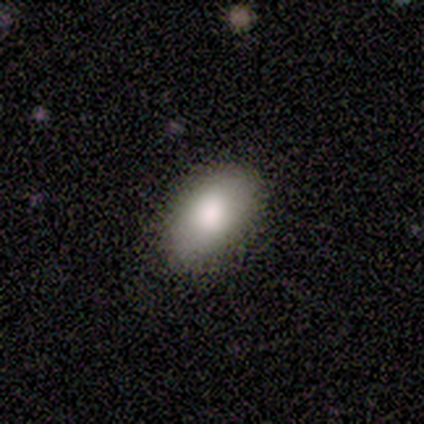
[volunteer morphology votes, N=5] A smooth galaxy with no disk features (80%) that is in between round and cigar-shaped (100%). Merging: none (100%).